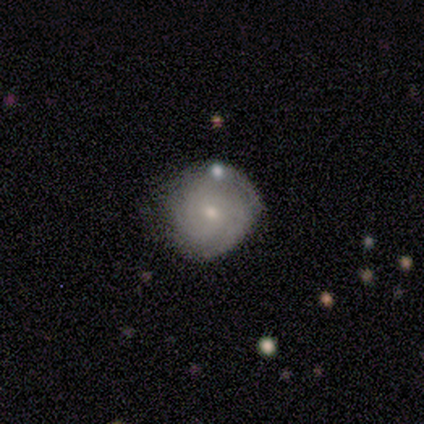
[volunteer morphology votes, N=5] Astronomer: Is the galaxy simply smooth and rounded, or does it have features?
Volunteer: featured or disk — 60% (runner-up: smooth, 40%).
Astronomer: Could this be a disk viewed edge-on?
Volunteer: no — 100%.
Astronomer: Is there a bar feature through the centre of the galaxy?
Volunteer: no — 67%.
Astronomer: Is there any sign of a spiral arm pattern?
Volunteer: yes — 67%.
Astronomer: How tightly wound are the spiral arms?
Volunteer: tight — 100%.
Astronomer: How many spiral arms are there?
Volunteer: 3 — 50%, tied with can't tell at 50%.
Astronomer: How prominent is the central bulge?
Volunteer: small — 67%.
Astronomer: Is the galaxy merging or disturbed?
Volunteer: none — 60% (runner-up: minor disturbance, 40%).